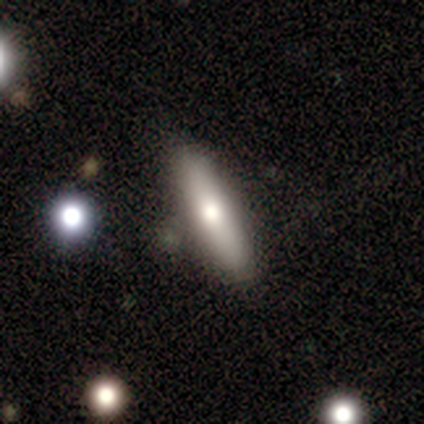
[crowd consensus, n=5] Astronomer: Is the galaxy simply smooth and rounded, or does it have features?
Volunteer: smooth — 60% (runner-up: featured or disk, 40%).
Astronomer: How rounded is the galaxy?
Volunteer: in between — 67%.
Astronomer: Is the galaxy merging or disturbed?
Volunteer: none — 80%.